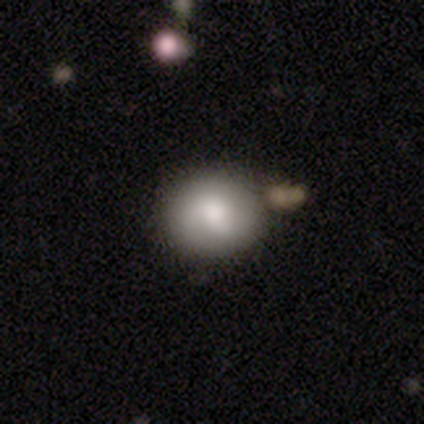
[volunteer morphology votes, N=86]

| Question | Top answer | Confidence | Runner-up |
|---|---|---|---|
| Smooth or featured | smooth | 74% | featured or disk (19%) |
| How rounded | round | 67% | in between (33%) |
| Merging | none | 76% | minor disturbance (11%) |